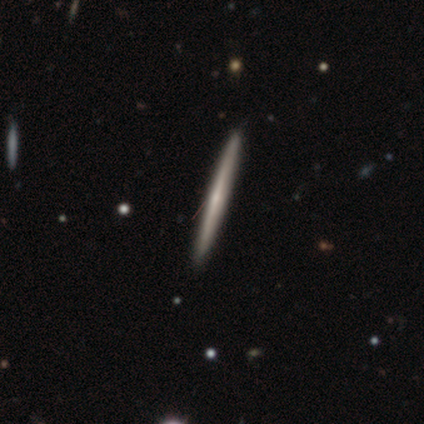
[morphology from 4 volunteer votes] Smooth or featured? featured or disk (75%)
Edge-on disk? yes (100%)
Edge-on bulge? none (67%)
Merging? none (100%)